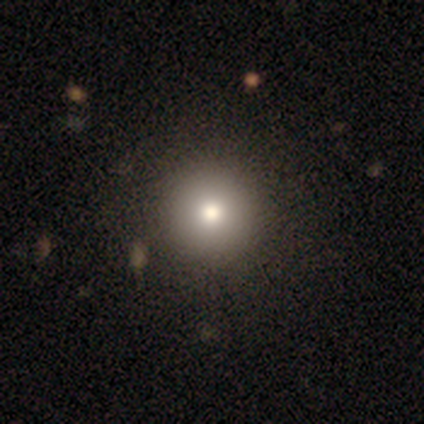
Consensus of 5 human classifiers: Smooth or featured?
  - smooth: 80% *
  - featured or disk: 20%
  - star or artifact: 0%
How rounded?
  - round: 100% *
  - in between: 0%
  - cigar-shaped: 0%
Merging?
  - none: 100% *
  - minor disturbance: 0%
  - major disturbance: 0%
  - merger: 0%